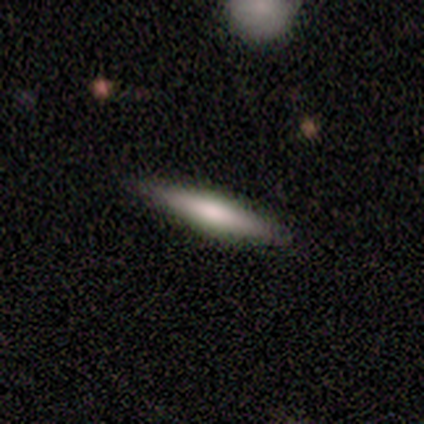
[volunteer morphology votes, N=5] Smooth or featured? featured or disk (60%)
Edge-on disk? yes (100%)
Edge-on bulge? rounded (67%)
Merging? none (80%)